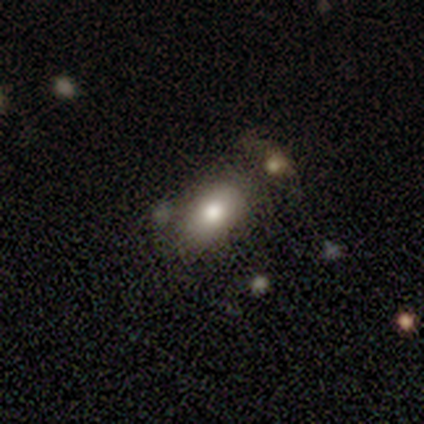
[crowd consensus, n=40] smooth-or-featured: smooth: 78% | featured or disk: 18% | star or artifact: 5%
  how-rounded: in between: 84% | round: 16% | cigar-shaped: 0%
  merging: none: 66% | minor disturbance: 18% | merger: 11% | major disturbance: 5%